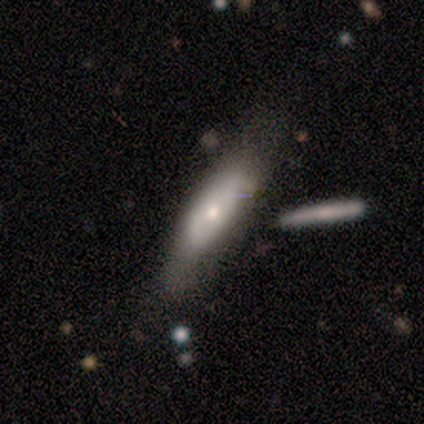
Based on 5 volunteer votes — Morphology: type=smooth (80%); roundness=in between (50%, tied with cigar-shaped); merging=none (60%).